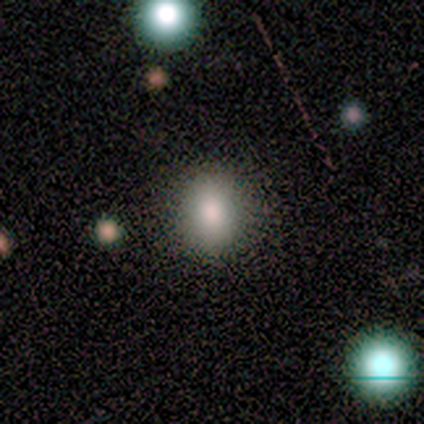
Q: Smooth or featured?
A: smooth (67%); runner-up: star or artifact (33%)
Q: How rounded?
A: round (100%)
Q: Merging?
A: none (50%); tied with: minor disturbance (50%)